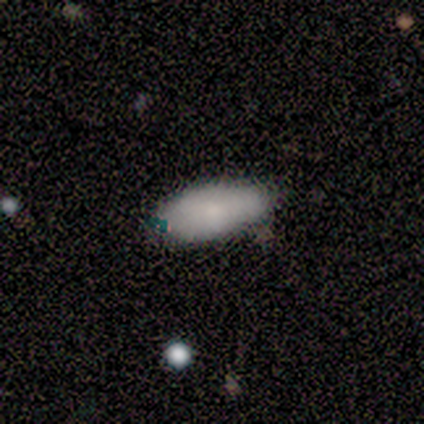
A smooth galaxy with no disk features (83%) that is in between round and cigar-shaped (90%).

Vote fractions:
- Smooth or featured? smooth: 83% / featured or disk: 8% / star or artifact: 8%
- How rounded? in between: 90% / cigar-shaped: 10% / round: 0%
- Merging? none: 82% / minor disturbance: 9% / major disturbance: 9% / merger: 0%